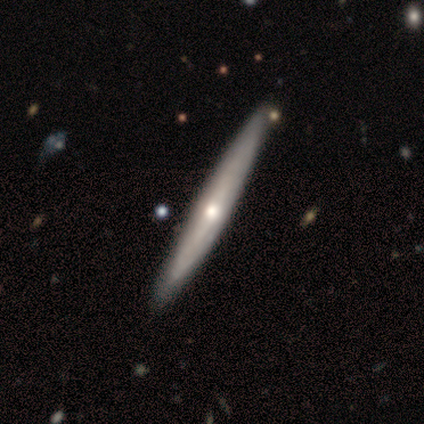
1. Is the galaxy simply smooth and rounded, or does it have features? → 74% featured or disk, 23% smooth, 3% star or artifact.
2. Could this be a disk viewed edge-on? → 97% yes, 3% no.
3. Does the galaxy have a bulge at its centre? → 79% rounded, 21% none, 0% boxy.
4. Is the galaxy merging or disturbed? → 87% none, 8% minor disturbance, 3% major disturbance, 3% merger.